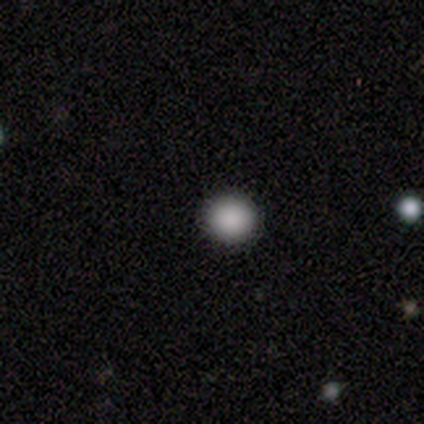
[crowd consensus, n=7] Volunteers were most divided on "smooth or featured": smooth: 71%, star or artifact: 29%, featured or disk: 0%. More confident: how rounded — round (100%); merging — none (100%).